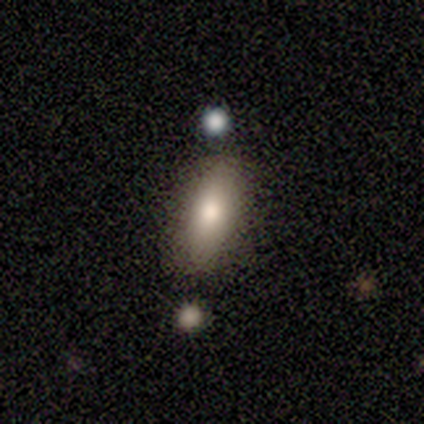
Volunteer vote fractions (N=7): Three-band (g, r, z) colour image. It shows a smooth galaxy with no disk features (57%) that is in between round and cigar-shaped (100%). Merging: none (100%).